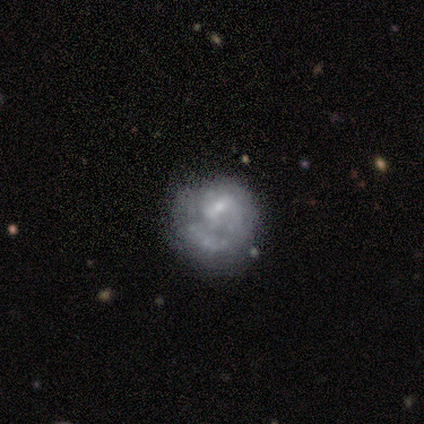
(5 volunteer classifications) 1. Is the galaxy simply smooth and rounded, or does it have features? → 60% featured or disk, 40% smooth, 0% star or artifact.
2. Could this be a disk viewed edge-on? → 100% no, 0% yes.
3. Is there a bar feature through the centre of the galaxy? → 33% strong (tied), 33% weak (tied), 33% no (tied).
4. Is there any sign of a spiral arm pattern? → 100% yes, 0% no.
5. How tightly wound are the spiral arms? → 33% tight (tied), 33% medium (tied), 33% loose (tied).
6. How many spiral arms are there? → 100% 1, 0% 2, 0% 3, 0% 4, 0% more than 4, 0% can't tell.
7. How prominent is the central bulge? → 33% large (tied), 33% moderate (tied), 33% small (tied), 0% dominant, 0% none.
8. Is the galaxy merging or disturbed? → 60% none, 40% major disturbance, 0% minor disturbance, 0% merger.